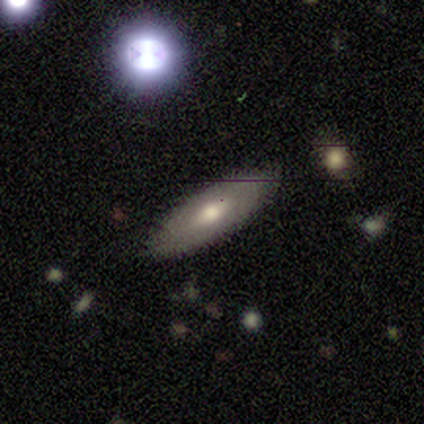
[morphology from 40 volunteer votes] A smooth galaxy with no disk features (52%) that is in between round and cigar-shaped (67%). Merging: none (87%).